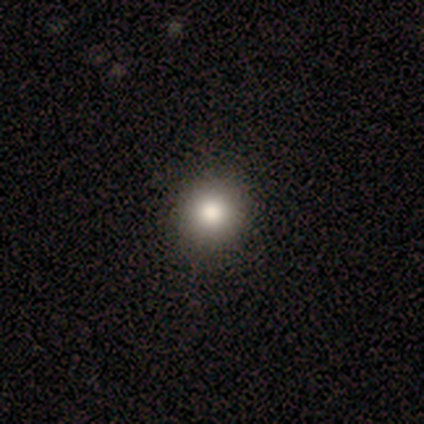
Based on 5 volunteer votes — Overall: smooth (80%). How rounded: round (100%). Merging: none (100%).